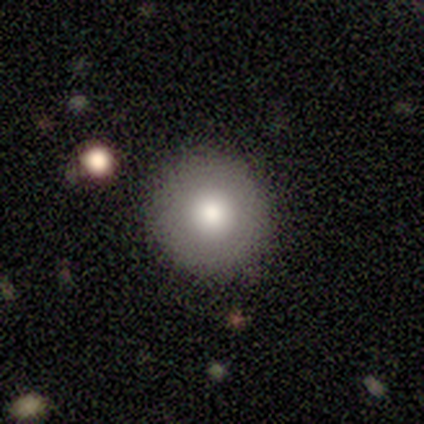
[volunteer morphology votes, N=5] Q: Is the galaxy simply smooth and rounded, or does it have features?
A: smooth — 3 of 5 (60%).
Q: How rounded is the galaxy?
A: round — 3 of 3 (100%).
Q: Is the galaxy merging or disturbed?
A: none — 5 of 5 (100%).